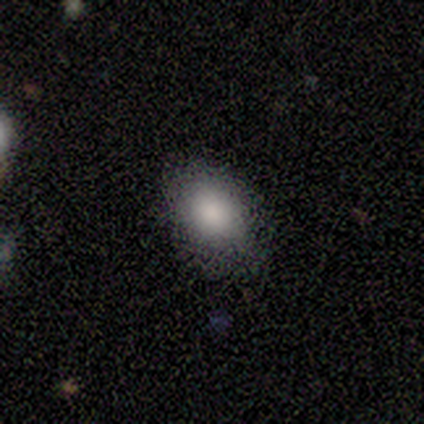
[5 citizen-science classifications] Morphology: type=smooth (80%); roundness=in between (100%); merging=none (80%).